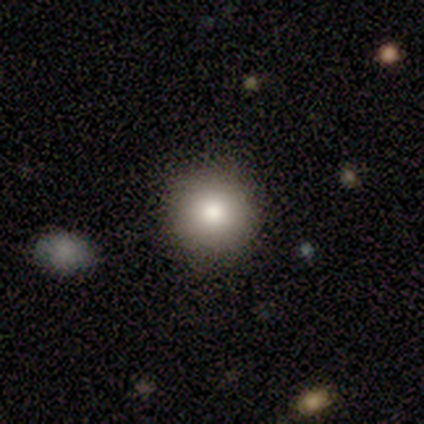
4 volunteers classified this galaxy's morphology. Smooth or featured? smooth (50%, tied with star or artifact)
How rounded? round (100%)
Merging? none (100%)